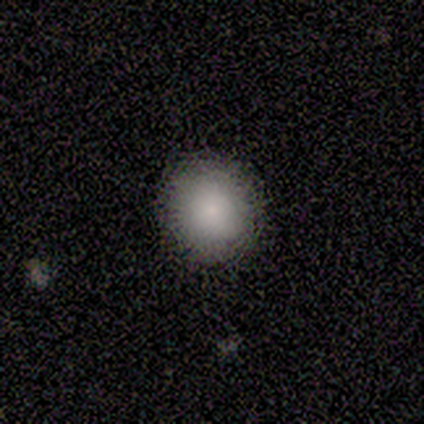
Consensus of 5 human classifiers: Smooth or featured? smooth (100%)
How rounded? round (100%)
Merging? none (80%)